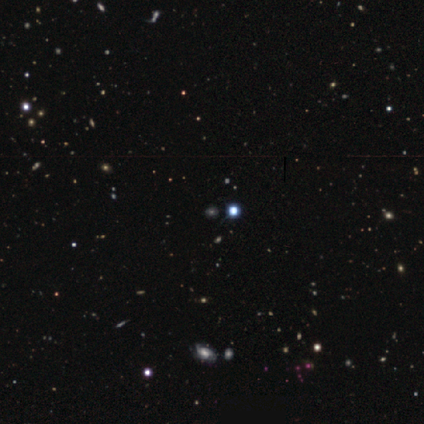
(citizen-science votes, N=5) Smooth or featured? 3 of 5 (60%) said star or artifact.